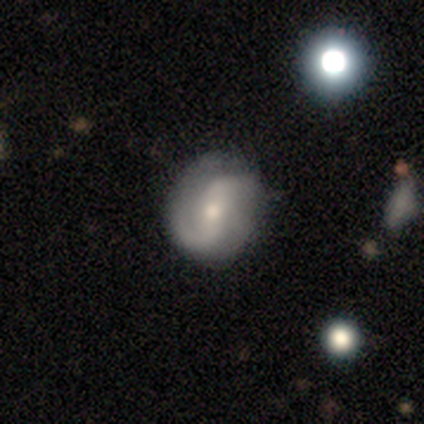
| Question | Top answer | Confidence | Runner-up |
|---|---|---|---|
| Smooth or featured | featured or disk | 60% | smooth (40%) |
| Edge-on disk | no | 100% | — |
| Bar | strong | 33% | tied: weak (33%), no (33%) |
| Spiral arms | yes | 67% | no (33%) |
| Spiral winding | medium | 50% | tied: loose (50%) |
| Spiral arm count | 2 | 50% | tied: 4 (50%) |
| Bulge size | moderate | 67% | small (33%) |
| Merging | none | 60% | minor disturbance (40%) |